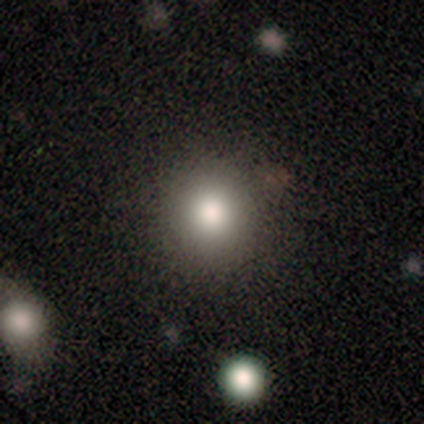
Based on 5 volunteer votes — A smooth galaxy with no disk features (80%) that is round (100%).

Vote fractions:
- Smooth or featured? smooth: 80% / featured or disk: 20% / star or artifact: 0%
- How rounded? round: 100% / in between: 0% / cigar-shaped: 0%
- Merging? none: 100% / minor disturbance: 0% / major disturbance: 0% / merger: 0%